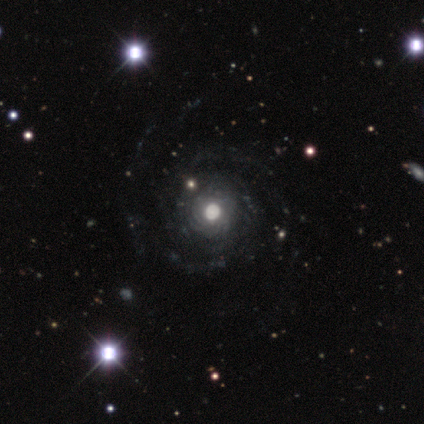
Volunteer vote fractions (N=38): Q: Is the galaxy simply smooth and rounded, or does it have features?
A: featured or disk — 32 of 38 (84%).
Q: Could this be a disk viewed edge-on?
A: no — 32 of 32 (100%).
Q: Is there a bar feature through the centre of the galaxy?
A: no — 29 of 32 (91%).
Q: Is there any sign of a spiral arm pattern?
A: yes — 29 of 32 (91%).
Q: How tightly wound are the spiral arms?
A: tight — 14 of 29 (48%).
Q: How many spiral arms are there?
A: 2 — 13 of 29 (45%).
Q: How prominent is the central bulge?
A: moderate — 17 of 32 (53%).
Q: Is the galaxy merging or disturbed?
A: none — 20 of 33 (61%).